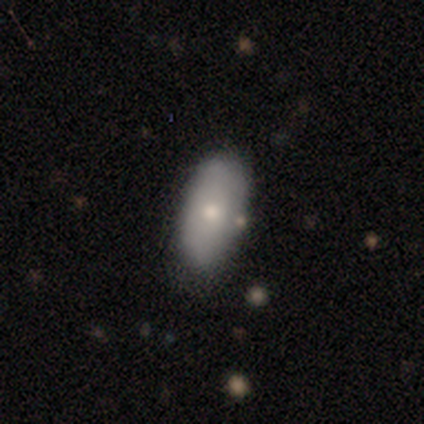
Smooth or featured?
  - smooth: 80% *
  - featured or disk: 20%
  - star or artifact: 0%
How rounded?
  - in between: 100% *
  - round: 0%
  - cigar-shaped: 0%
Merging?
  - none: 100% *
  - minor disturbance: 0%
  - major disturbance: 0%
  - merger: 0%